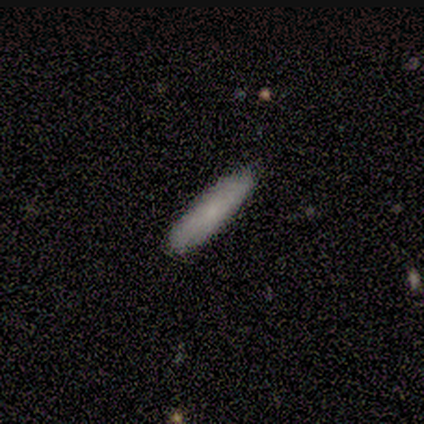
smooth-or-featured: featured or disk: 60% | smooth: 40% | star or artifact: 0%
  disk-edge-on: yes: 67% | no: 33%
    edge-on-bulge: none: 100% | boxy: 0% | rounded: 0%
  merging: none: 100% | minor disturbance: 0% | major disturbance: 0% | merger: 0%